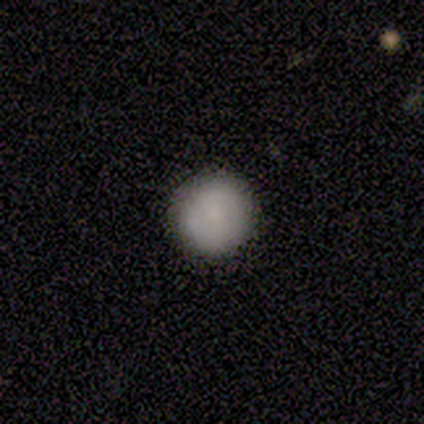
Volunteers were most divided on "merging": none: 67%, minor disturbance: 33%, major disturbance: 0%, merger: 0%. More confident: smooth or featured — smooth (100%); how rounded — round (100%).